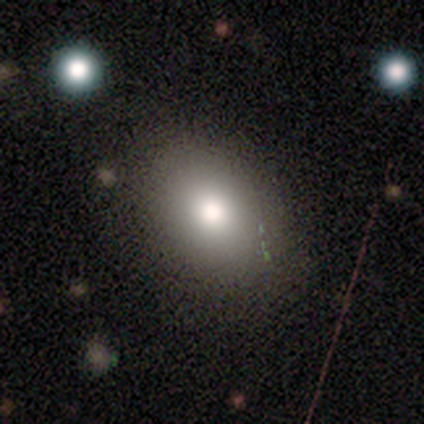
This appears to be a smooth galaxy with no disk features (40%, tied with star or artifact) that is in between round and cigar-shaped (100%). Merging: none (67%).